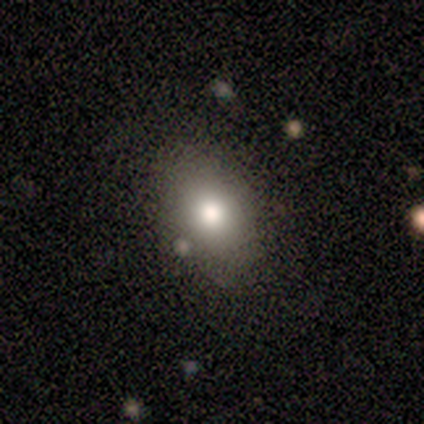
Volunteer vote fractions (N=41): A smooth galaxy with no disk features (78%) that is in between round and cigar-shaped (81%).

Vote fractions:
- Smooth or featured? smooth: 78% / star or artifact: 12% / featured or disk: 10%
- How rounded? in between: 81% / round: 19% / cigar-shaped: 0%
- Merging? none: 81% / minor disturbance: 11% / merger: 8% / major disturbance: 0%